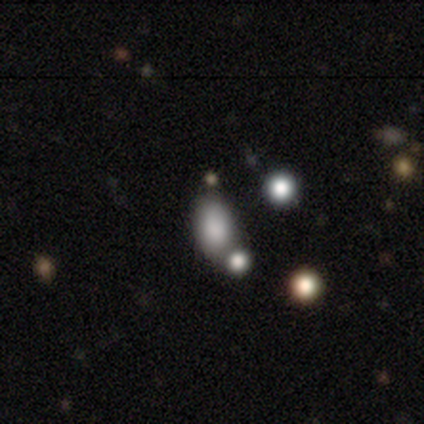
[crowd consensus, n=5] Smooth or featured: smooth — 100%
How rounded: in between — 100%
Merging: none — 60% (merger — 40%)